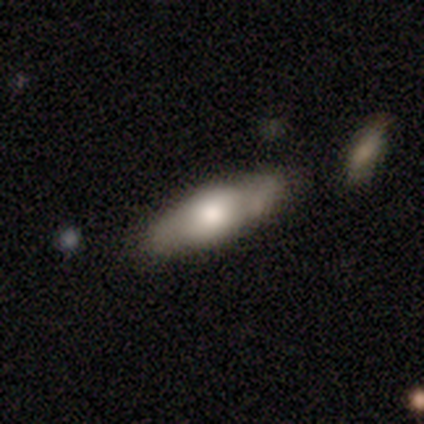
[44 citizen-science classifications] Smooth or featured: smooth — 61% (featured or disk — 32%)
How rounded: in between — 56% (cigar-shaped — 44%)
Merging: none — 78% (minor disturbance — 15%)